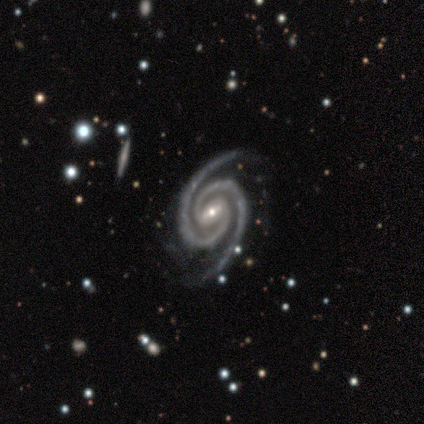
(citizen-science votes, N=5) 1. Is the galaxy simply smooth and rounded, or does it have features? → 100% featured or disk, 0% smooth, 0% star or artifact.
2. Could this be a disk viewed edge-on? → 100% no, 0% yes.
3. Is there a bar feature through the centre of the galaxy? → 60% weak, 40% strong, 0% no.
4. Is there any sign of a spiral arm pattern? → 100% yes, 0% no.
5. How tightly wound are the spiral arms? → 100% tight, 0% medium, 0% loose.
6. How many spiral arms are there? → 100% 2, 0% 1, 0% 3, 0% 4, 0% more than 4, 0% can't tell.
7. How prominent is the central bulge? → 60% small, 40% moderate, 0% dominant, 0% large, 0% none.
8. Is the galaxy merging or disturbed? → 100% none, 0% minor disturbance, 0% major disturbance, 0% merger.